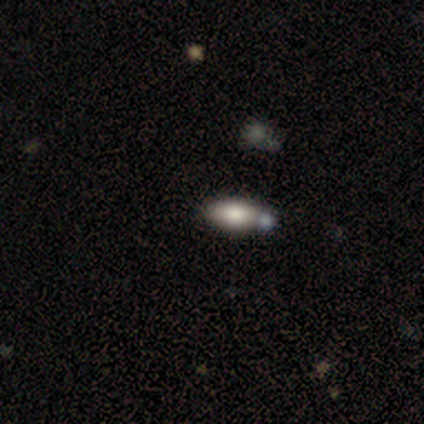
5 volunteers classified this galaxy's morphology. This appears to be a smooth galaxy with no disk features (80%) that is in between round and cigar-shaped (75%). Merging: none (80%).